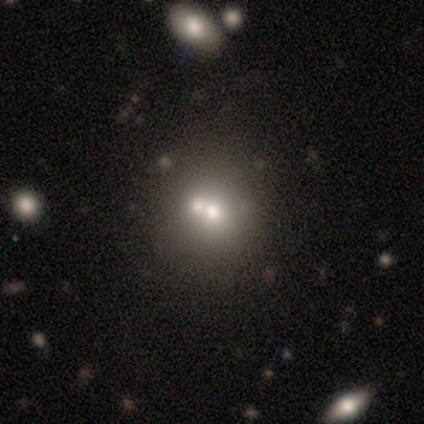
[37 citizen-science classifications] smooth-or-featured: smooth: 54% | featured or disk: 38% | star or artifact: 8%
  how-rounded: round: 80% | in between: 20% | cigar-shaped: 0%
  merging: merger: 50% | none: 41% | minor disturbance: 6% | major disturbance: 3%